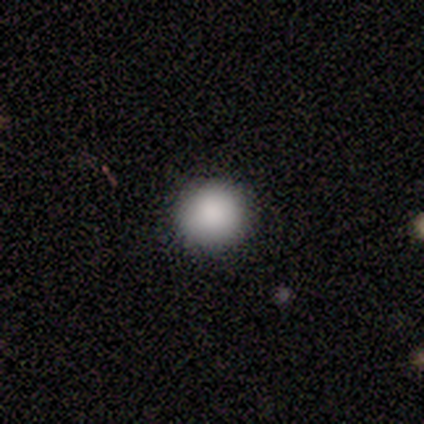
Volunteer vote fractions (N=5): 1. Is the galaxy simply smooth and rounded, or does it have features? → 100% smooth, 0% featured or disk, 0% star or artifact.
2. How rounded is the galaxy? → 100% round, 0% in between, 0% cigar-shaped.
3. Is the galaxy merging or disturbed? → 100% none, 0% minor disturbance, 0% major disturbance, 0% merger.